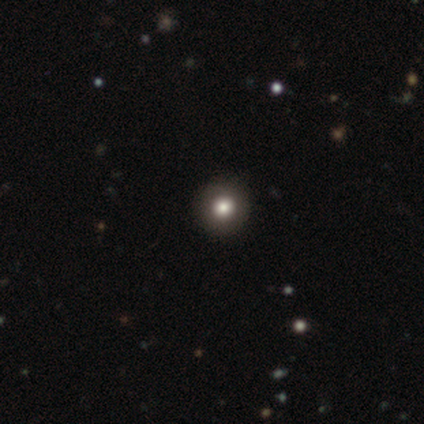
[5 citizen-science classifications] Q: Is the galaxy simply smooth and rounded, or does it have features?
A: smooth — 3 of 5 (60%).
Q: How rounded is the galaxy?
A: round — 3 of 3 (100%).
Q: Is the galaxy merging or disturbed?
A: none — 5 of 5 (100%).